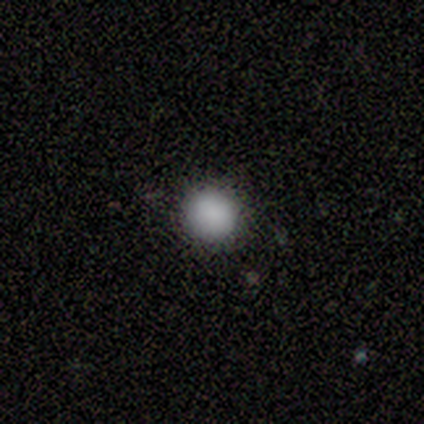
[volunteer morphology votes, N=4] A smooth galaxy with no disk features (100%) that is round (100%). Merging: none (100%).